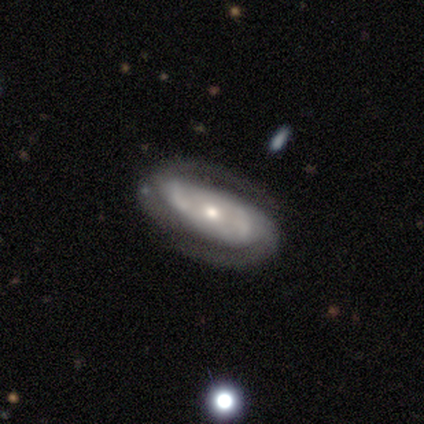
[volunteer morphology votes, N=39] type=featured or disk (87%); edge-on=no (91%); bar=no (58%); spiral arms=yes (94%); winding=medium (62%); arm count=2 (76%); bulge=small (58%); merging=none (76%).